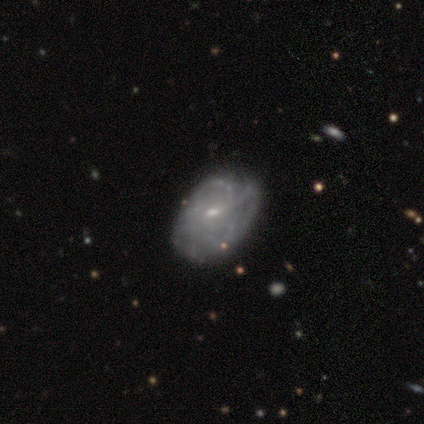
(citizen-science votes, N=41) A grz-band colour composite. It shows a featured or disk galaxy (71%) with a weak bar (44%, tied with no), tight (48%) spiral arms (78%) and a small central bulge (70%). Merging: none (73%).